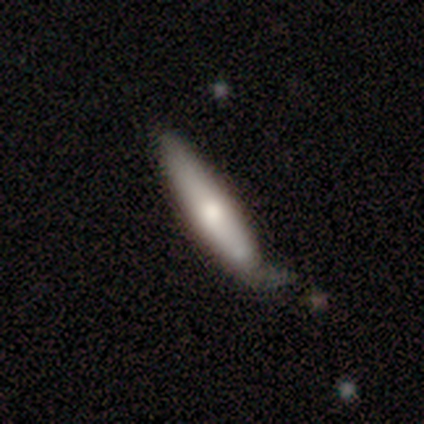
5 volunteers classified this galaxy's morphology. type=smooth (60%); roundness=in between (67%); merging=none (60%).